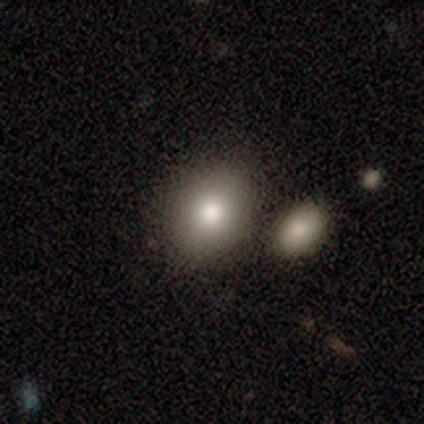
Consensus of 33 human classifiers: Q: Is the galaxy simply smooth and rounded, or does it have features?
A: smooth — 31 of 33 (94%).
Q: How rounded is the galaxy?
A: in between — 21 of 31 (68%).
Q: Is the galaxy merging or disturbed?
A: merger — 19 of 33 (58%).